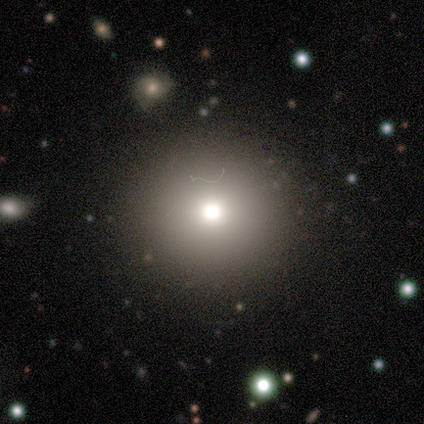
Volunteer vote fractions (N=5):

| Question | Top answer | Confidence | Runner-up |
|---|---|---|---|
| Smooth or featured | star or artifact | 80% | smooth (20%) |